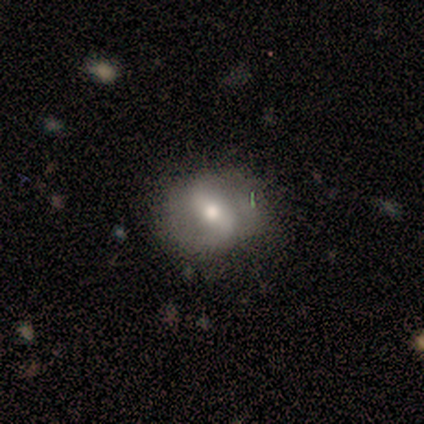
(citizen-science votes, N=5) This appears to be a featured or disk galaxy (80%) with no bar (50%), 1 (50%, tied with 2) medium (50%, tied with loose) spiral arms (50%, tied with no) and a moderate central bulge (50%, tied with small). Merging: none (100%).